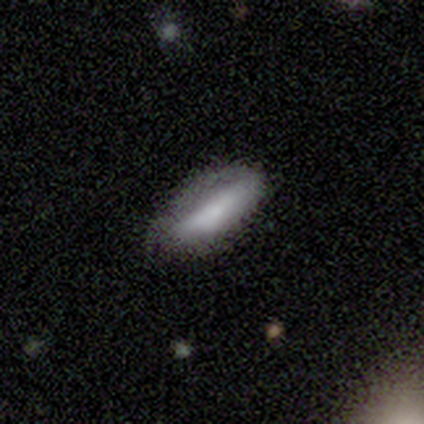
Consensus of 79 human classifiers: A smooth galaxy with no disk features (66%) that is in between round and cigar-shaped (58%).

Vote fractions:
- Smooth or featured? smooth: 66% / featured or disk: 32% / star or artifact: 3%
- How rounded? in between: 58% / cigar-shaped: 42% / round: 0%
- Merging? none: 26% / minor disturbance: 14% / major disturbance: 9% / merger: 1%